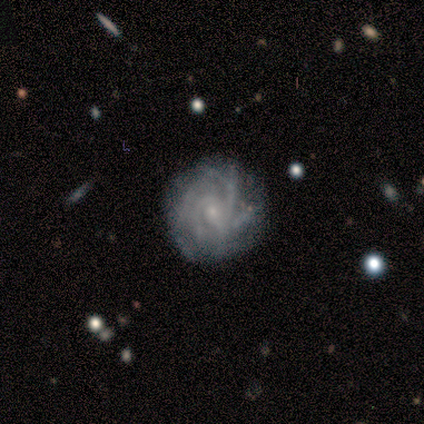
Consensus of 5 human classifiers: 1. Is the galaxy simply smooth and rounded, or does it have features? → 100% featured or disk, 0% smooth, 0% star or artifact.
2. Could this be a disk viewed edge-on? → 100% no, 0% yes.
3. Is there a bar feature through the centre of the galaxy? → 80% no, 20% weak, 0% strong.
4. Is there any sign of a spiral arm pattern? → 100% yes, 0% no.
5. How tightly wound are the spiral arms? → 80% tight, 20% medium, 0% loose.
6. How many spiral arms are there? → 60% 4, 20% more than 4, 20% can't tell, 0% 1, 0% 2, 0% 3.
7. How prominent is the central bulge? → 100% small, 0% dominant, 0% large, 0% moderate, 0% none.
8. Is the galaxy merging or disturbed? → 100% none, 0% minor disturbance, 0% major disturbance, 0% merger.